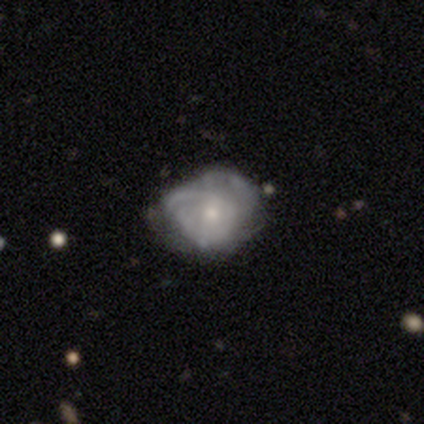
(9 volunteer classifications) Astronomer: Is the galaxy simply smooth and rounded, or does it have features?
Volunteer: featured or disk — 89%.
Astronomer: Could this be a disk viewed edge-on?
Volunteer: no — 100%.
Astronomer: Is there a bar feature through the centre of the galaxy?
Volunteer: no — 88%.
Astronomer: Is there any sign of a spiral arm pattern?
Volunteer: yes — 88%.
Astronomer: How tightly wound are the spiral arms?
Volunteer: medium — 43% (runner-up: tight, 29%).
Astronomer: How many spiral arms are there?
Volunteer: can't tell — 71%.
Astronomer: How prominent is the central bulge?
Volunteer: moderate — 38%, tied with small at 38%.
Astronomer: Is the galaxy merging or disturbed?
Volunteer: none — 67%.